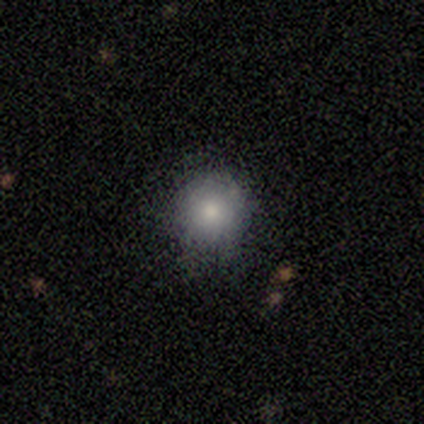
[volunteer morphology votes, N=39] This appears to be a smooth galaxy with no disk features (85%) that is round (91%). Merging: none (78%).